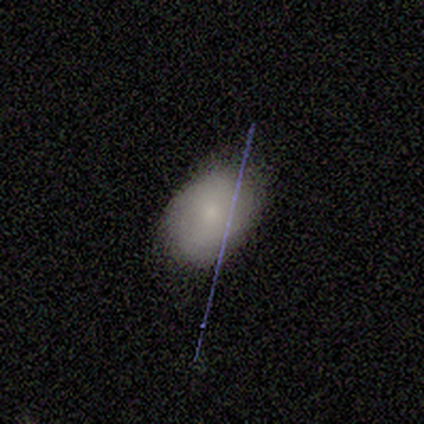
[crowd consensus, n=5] This is clearly a smooth galaxy (80%). How rounded: clearly in between (100%). Merging: clearly none (100%).